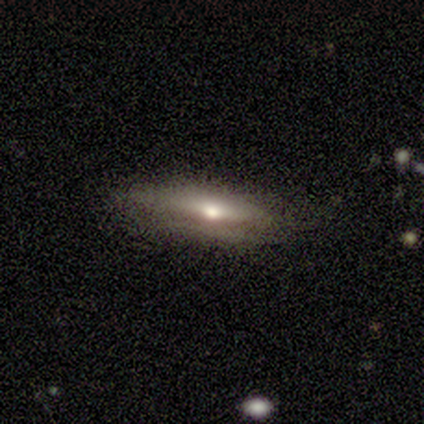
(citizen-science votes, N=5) This is likely a featured or disk galaxy (60%). It is clearly viewed edge-on (100%). Edge-on bulge: likely rounded (67%). Merging: likely none (75%).